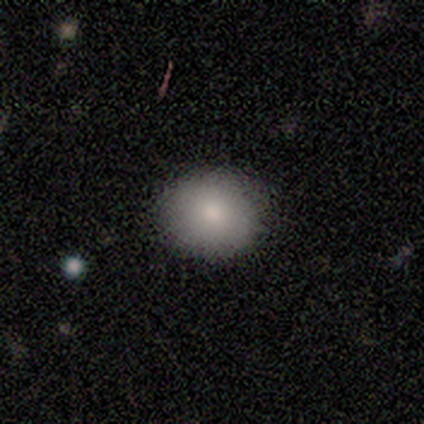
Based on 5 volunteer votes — Smooth or featured?
  - smooth: 100% *
  - featured or disk: 0%
  - star or artifact: 0%
How rounded?
  - round: 60% *
  - in between: 40%
  - cigar-shaped: 0%
Merging?
  - none: 80% *
  - major disturbance: 20%
  - minor disturbance: 0%
  - merger: 0%